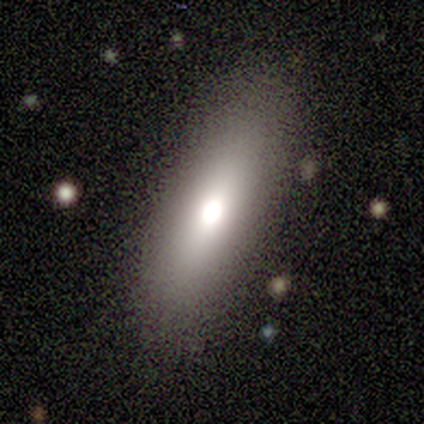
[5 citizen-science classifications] This appears to be a smooth galaxy with no disk features (40%, tied with featured or disk) that is in between round and cigar-shaped (100%). Merging: none (100%).